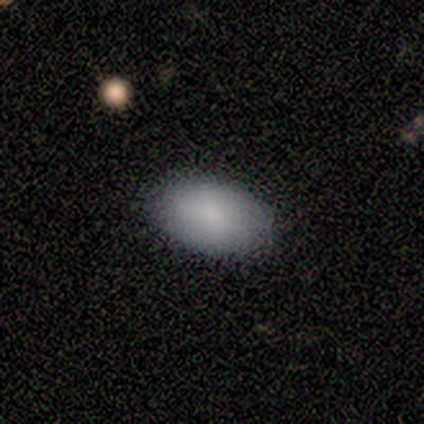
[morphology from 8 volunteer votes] smooth 88%, featured or disk 12%, star or artifact 0%. Down the decision tree: how rounded — in between (86%); merging — none (88%).